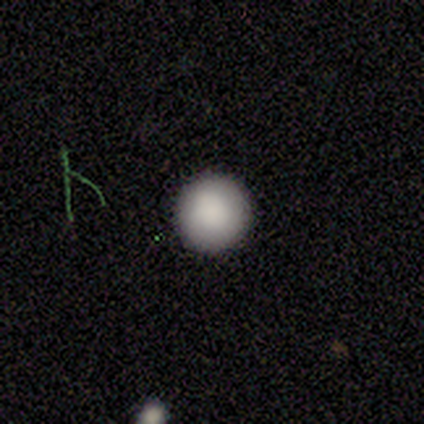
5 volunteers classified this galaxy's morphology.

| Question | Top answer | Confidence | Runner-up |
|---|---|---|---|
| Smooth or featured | smooth | 100% | — |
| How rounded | round | 100% | — |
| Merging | none | 100% | — |